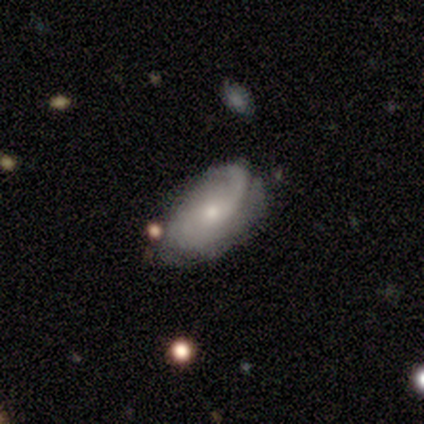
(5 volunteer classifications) featured or disk 60%, smooth 40%, star or artifact 0%. Down the decision tree: edge-on disk — no (100%); bar — no (100%); spiral arms — yes (100%); spiral arm count — 2 (100%); spiral winding — tight (33%, tied with medium and loose); bulge size — moderate (67%); merging — none (60%).